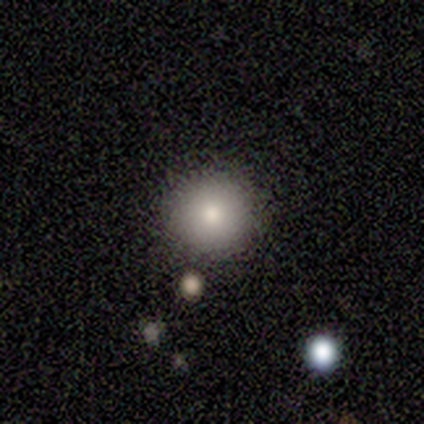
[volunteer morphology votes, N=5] Smooth or featured? 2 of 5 (40%, tied with star or artifact) said smooth. How rounded? 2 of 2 (100%) said round. Merging? 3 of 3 (100%) said none.